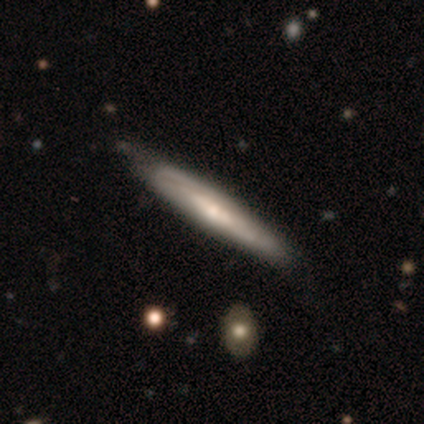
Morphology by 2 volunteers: type=smooth (50%, tied with featured or disk); roundness=cigar-shaped (100%); merging=none (100%).